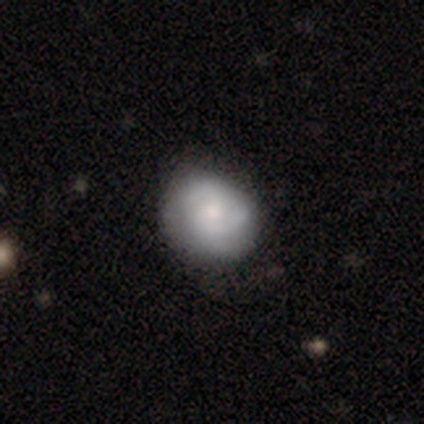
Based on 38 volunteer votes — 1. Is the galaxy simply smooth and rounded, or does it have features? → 66% featured or disk, 29% smooth, 5% star or artifact.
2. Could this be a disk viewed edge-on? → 96% no, 4% yes.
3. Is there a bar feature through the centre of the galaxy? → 92% no, 8% weak, 0% strong.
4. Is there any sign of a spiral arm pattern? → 88% yes, 12% no.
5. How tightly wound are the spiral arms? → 52% tight, 43% medium, 5% loose.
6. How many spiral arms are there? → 67% 2, 19% 3, 14% can't tell, 0% 1, 0% 4, 0% more than 4.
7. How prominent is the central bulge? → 50% moderate, 38% small, 8% large, 4% none, 0% dominant.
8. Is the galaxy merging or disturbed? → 42% none, 14% minor disturbance, 3% major disturbance, 3% merger.